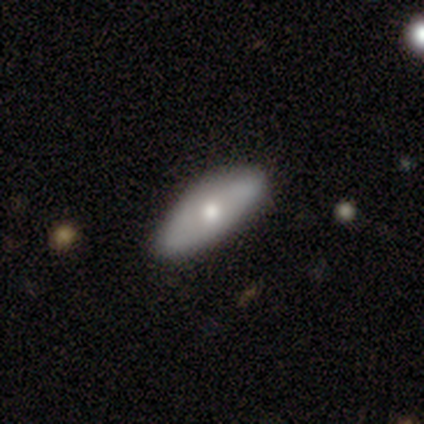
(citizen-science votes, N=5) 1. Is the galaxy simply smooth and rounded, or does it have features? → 60% smooth, 20% featured or disk, 20% star or artifact.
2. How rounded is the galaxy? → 100% in between, 0% round, 0% cigar-shaped.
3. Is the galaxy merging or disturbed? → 75% minor disturbance, 25% none, 0% major disturbance, 0% merger.